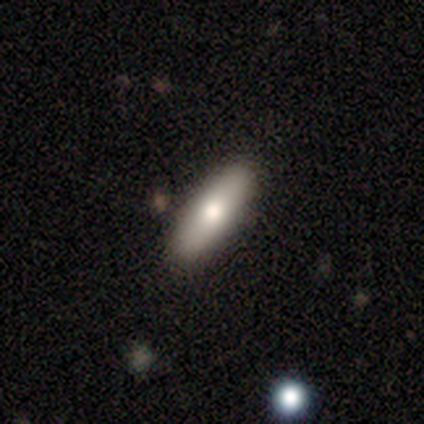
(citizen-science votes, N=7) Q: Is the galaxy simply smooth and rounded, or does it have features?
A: smooth — 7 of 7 (100%).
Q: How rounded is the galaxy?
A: cigar-shaped — 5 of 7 (71%).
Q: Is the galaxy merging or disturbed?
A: none — 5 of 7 (71%).